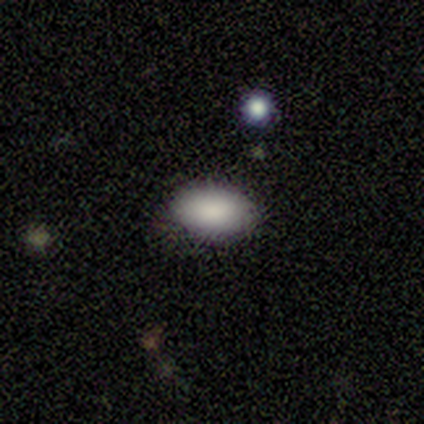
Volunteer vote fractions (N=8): This is clearly a smooth galaxy (100%). How rounded: clearly in between (100%). Merging: likely none (75%).